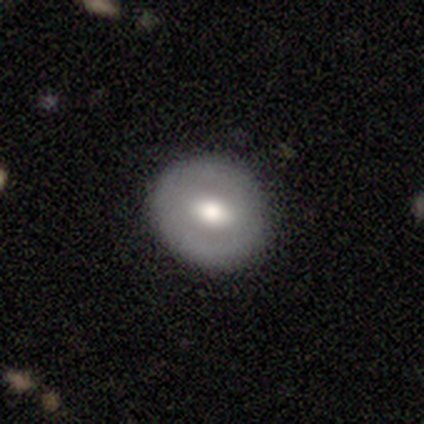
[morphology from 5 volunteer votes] Q: Smooth or featured?
A: smooth (60%); runner-up: featured or disk (40%)
Q: How rounded?
A: round (100%)
Q: Merging?
A: none (100%)